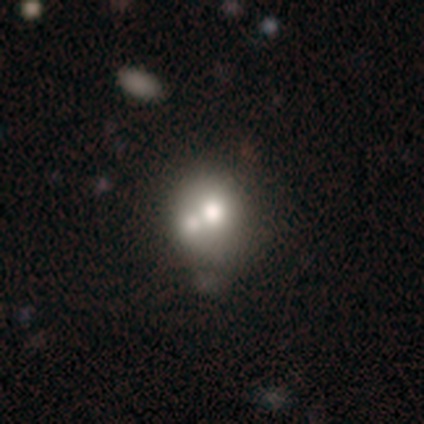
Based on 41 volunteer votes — Q: Smooth or featured?
A: smooth (56%); runner-up: featured or disk (37%)
Q: How rounded?
A: round (65%); runner-up: in between (35%)
Q: Merging?
A: merger (58%); runner-up: none (21%)